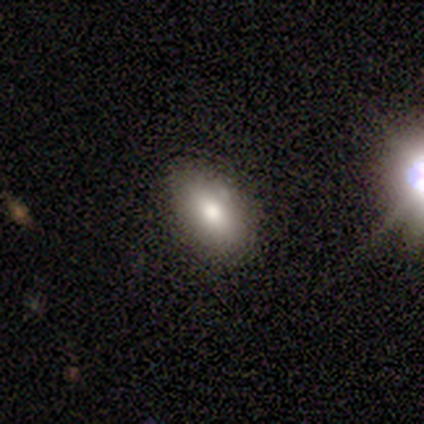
Volunteers were most divided on "merging": none: 67%, minor disturbance: 33%, major disturbance: 0%, merger: 0%. More confident: how rounded — in between (100%); smooth or featured — smooth (75%).